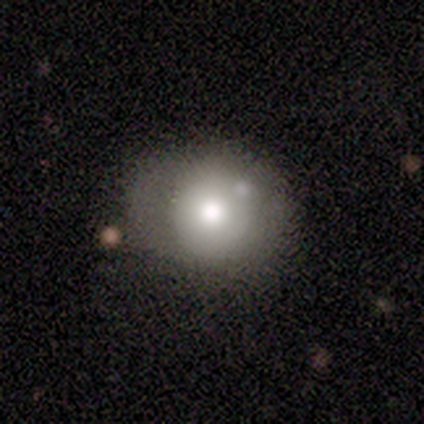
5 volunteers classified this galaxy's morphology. Q: Smooth or featured?
A: smooth (40%); tied with: star or artifact (40%)
Q: How rounded?
A: round (50%); tied with: in between (50%)
Q: Merging?
A: none (67%); runner-up: minor disturbance (33%)